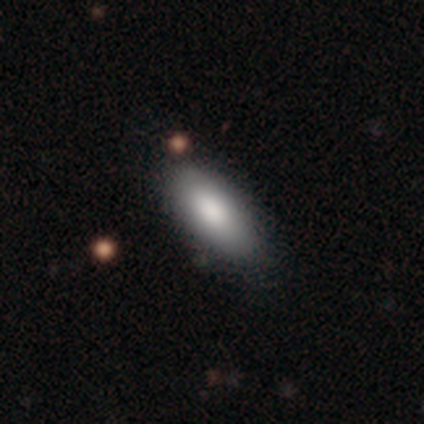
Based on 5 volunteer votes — Smooth or featured: smooth — 80% (star or artifact — 20%)
How rounded: in between — 100%
Merging: none — 100%